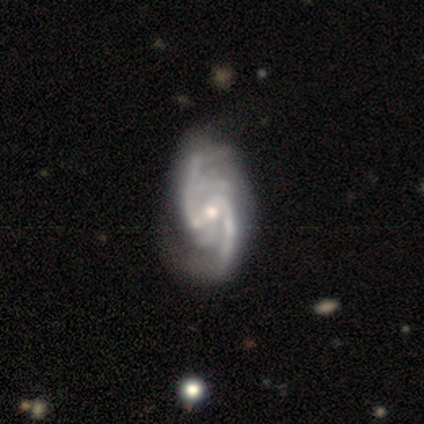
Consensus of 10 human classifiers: Volunteers were most divided on "spiral winding": loose: 44%, tight: 33%, medium: 22%. Remaining: edge-on disk — no (100%); spiral arms — yes (100%); smooth or featured — featured or disk (90%); bulge size — moderate (78%); bar — weak (78%); merging — none (70%); spiral arm count — 2 (44%).